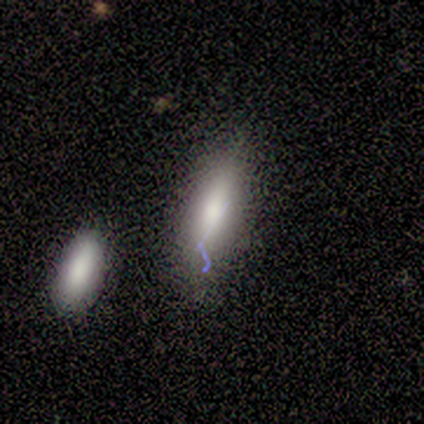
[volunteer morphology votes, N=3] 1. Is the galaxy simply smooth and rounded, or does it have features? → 67% smooth, 33% featured or disk, 0% star or artifact.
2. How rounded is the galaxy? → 50% in between (tied), 50% cigar-shaped (tied), 0% round.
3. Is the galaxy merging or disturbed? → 67% merger, 33% none, 0% minor disturbance, 0% major disturbance.